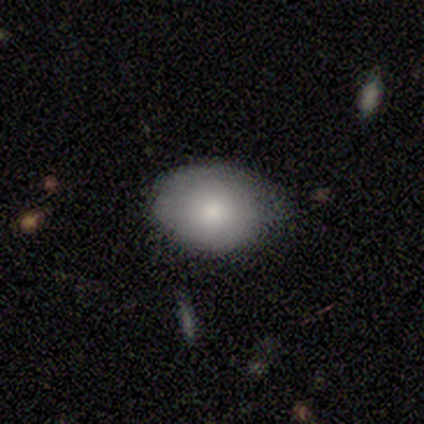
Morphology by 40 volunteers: Volunteers were most divided on "merging": none: 64%, minor disturbance: 31%, major disturbance: 3%, merger: 3%. More confident: smooth or featured — smooth (72%); how rounded — in between (72%).